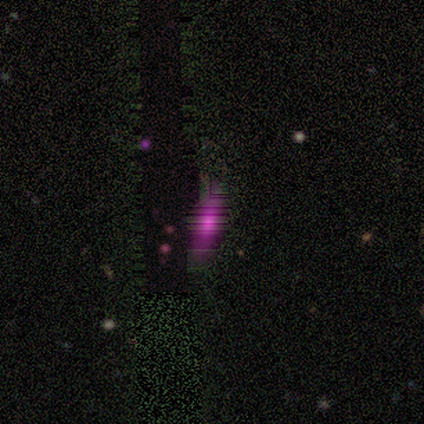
Smooth or featured: star or artifact — 60% (smooth — 20%)